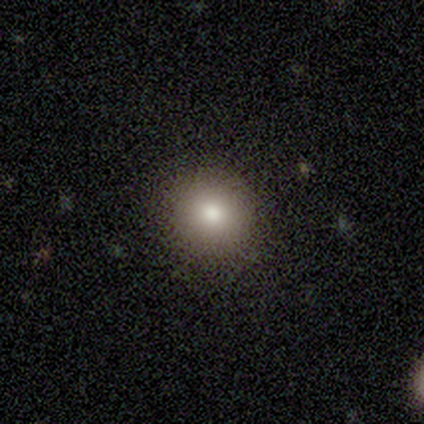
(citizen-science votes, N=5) Overall: smooth (60%; featured or disk 20%). How rounded: round (100%). Merging: none (100%).